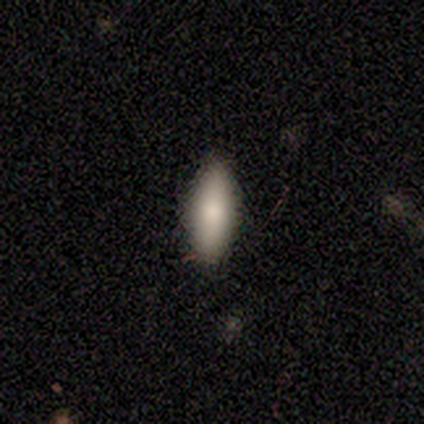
smooth 89%, featured or disk 11%, star or artifact 0%. Down the decision tree: how rounded — in between (88%); merging — none (100%).